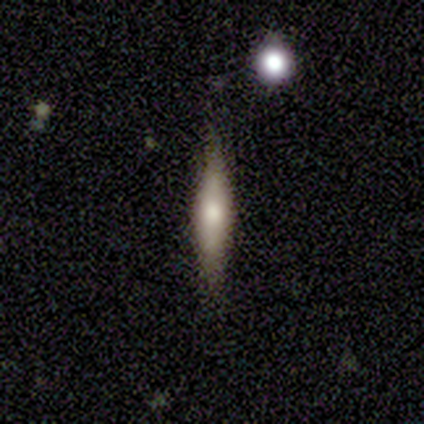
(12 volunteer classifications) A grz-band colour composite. It shows a featured or disk galaxy (67%) viewed edge-on (88%) with a rounded central bulge (86%). Merging: none (91%).